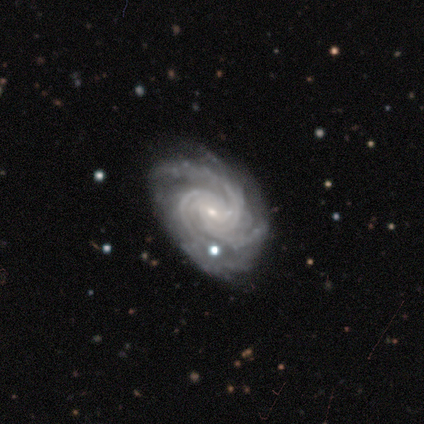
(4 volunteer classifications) Morphology: type=featured or disk (75%); edge-on=no (100%); bar=no (100%); spiral arms=yes (100%); winding=tight (100%); arm count=3 (67%); bulge=small (100%); merging=none (100%).